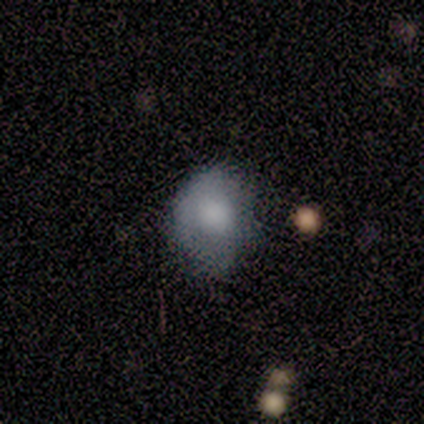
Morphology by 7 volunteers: Smooth or featured?
  - smooth: 86% *
  - featured or disk: 14%
  - star or artifact: 0%
How rounded?
  - round: 67% *
  - in between: 33%
  - cigar-shaped: 0%
Merging?
  - none: 57% *
  - major disturbance: 29%
  - minor disturbance: 14%
  - merger: 0%